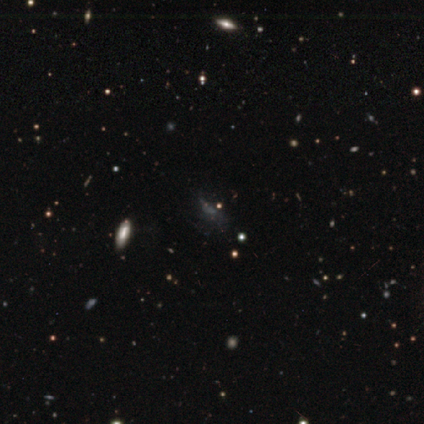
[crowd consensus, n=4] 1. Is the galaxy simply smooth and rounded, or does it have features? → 50% smooth (tied), 50% star or artifact (tied), 0% featured or disk.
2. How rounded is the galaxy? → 50% in between (tied), 50% cigar-shaped (tied), 0% round.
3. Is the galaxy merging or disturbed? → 50% none (tied), 50% minor disturbance (tied), 0% major disturbance, 0% merger.